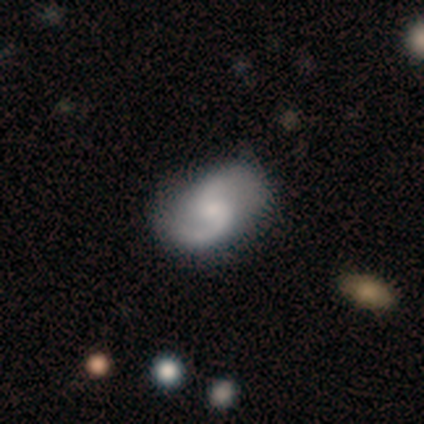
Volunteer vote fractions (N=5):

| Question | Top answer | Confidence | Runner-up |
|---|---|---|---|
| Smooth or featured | featured or disk | 100% | — |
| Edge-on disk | no | 100% | — |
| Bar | no | 80% | weak (20%) |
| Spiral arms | yes | 100% | — |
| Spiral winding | loose | 60% | medium (40%) |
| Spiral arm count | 2 | 80% | can't tell (20%) |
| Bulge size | small | 60% | moderate (20%) |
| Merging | none | 100% | — |